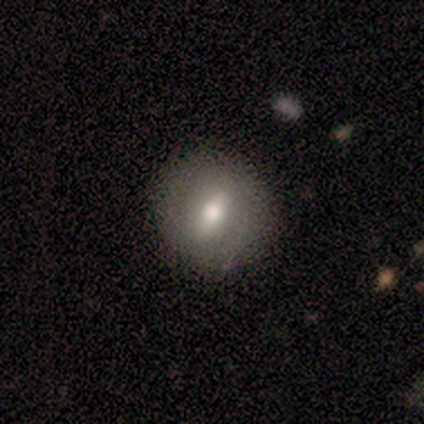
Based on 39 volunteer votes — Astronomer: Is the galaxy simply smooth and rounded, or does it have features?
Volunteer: featured or disk — 56% (runner-up: smooth, 41%).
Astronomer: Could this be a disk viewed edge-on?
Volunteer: no — 86%.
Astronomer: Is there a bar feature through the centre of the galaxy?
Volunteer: weak — 58% (runner-up: strong, 37%).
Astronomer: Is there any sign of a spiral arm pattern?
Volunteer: no — 79%.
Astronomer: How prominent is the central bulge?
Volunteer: moderate — 84%.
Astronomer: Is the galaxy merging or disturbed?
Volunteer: none — 58%.